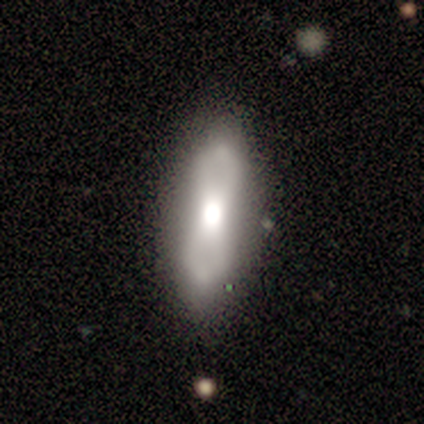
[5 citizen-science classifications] smooth 60%, featured or disk 40%, star or artifact 0%. Down the decision tree: how rounded — in between (100%); merging — none (80%).